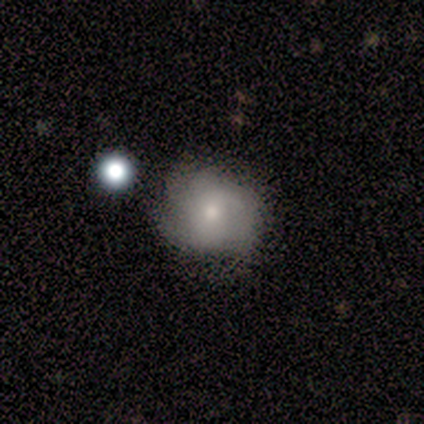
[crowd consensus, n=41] A featured or disk galaxy (59%) with no bar (75%), tight (47%) spiral arms (79%) and a moderate central bulge (54%).

Vote fractions:
- Smooth or featured? featured or disk: 59% / smooth: 39% / star or artifact: 2%
- Edge-on disk? no: 100% / yes: 0%
- Bar? no: 75% / weak: 17% / strong: 8%
- Spiral arms? yes: 79% / no: 21%
- Spiral winding? tight: 47% / medium: 37% / loose: 16%
- Spiral arm count? can't tell: 37% / 4: 26% / 3: 21% / 2: 16% / 1: 0% / more than 4: 0%
- Bulge size? moderate: 54% / small: 46% / dominant: 0% / large: 0% / none: 0%
- Merging? none: 68% / minor disturbance: 22% / major disturbance: 10% / merger: 0%